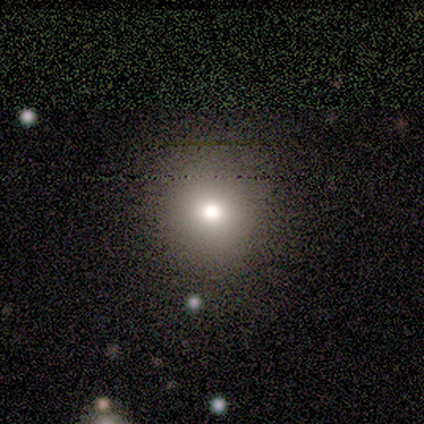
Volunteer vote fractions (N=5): Overall: smooth (100%). How rounded: round (100%). Merging: none (100%).